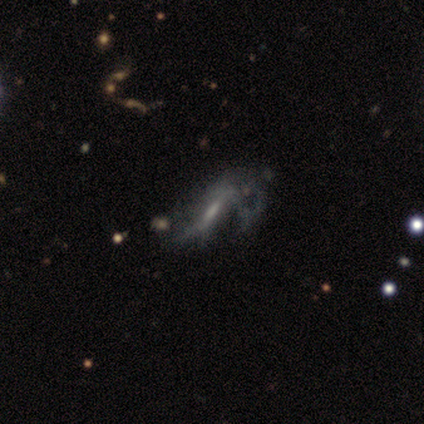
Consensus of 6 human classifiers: Q: Smooth or featured?
A: featured or disk (83%); runner-up: smooth (17%)
Q: Edge-on disk?
A: yes (60%); runner-up: no (40%)
Q: Edge-on bulge?
A: boxy (33%); tied with: none (33%); rounded (33%)
Q: Merging?
A: major disturbance (67%); runner-up: none (17%)